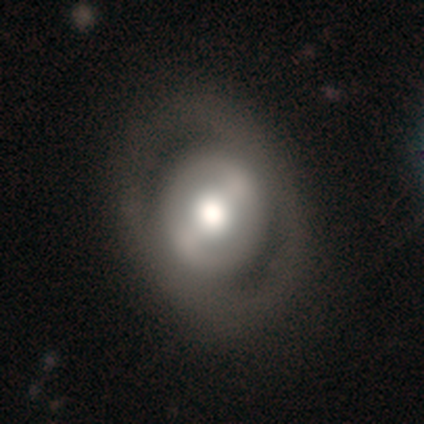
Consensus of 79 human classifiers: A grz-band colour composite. It shows a featured or disk galaxy (68%) with a strong bar (58%), no spiral arms (87%) and a moderate central bulge (47%). Merging: none (38%).